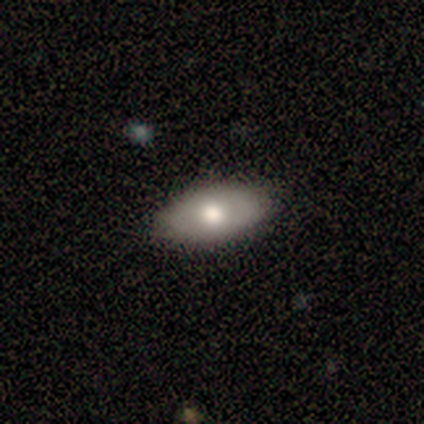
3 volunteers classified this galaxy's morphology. Consensus on every question: smooth or featured — smooth (100%); how rounded — in between (100%); merging — none (100%).